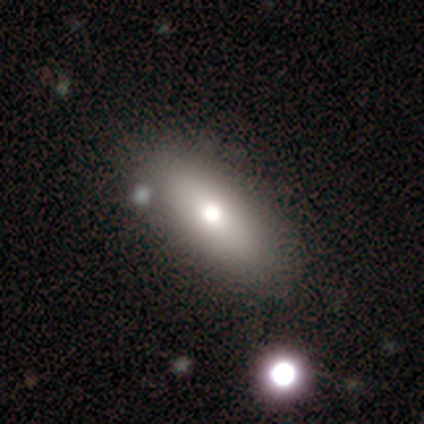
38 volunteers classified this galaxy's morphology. Smooth or featured?
  - smooth: 61% *
  - featured or disk: 34%
  - star or artifact: 5%
How rounded?
  - in between: 83% *
  - cigar-shaped: 17%
  - round: 0%
Merging?
  - none: 47% *
  - minor disturbance: 6%
  - merger: 6%
  - major disturbance: 0%